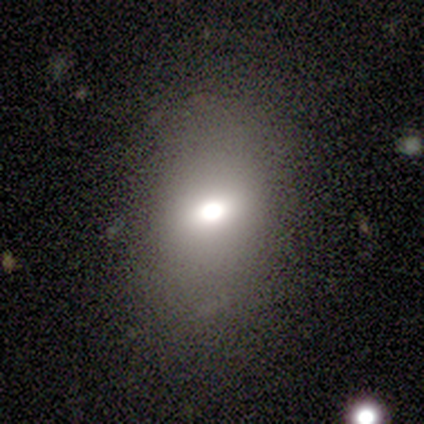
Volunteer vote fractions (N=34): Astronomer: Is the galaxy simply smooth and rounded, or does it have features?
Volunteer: smooth — 79%.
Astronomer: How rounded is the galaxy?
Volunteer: in between — 67%.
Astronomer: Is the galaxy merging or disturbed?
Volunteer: none — 78%.